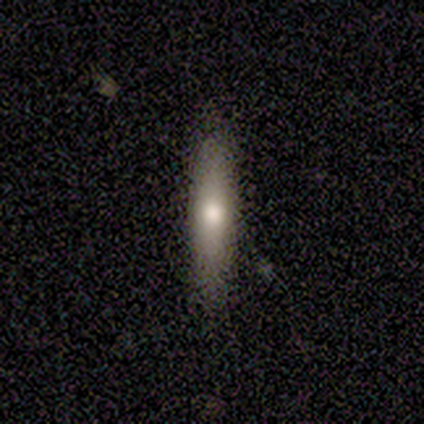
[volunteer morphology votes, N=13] A smooth galaxy with no disk features (62%) that is cigar-shaped (100%).

Vote fractions:
- Smooth or featured? smooth: 62% / featured or disk: 31% / star or artifact: 8%
- How rounded? cigar-shaped: 100% / round: 0% / in between: 0%
- Merging? none: 83% / minor disturbance: 17% / major disturbance: 0% / merger: 0%